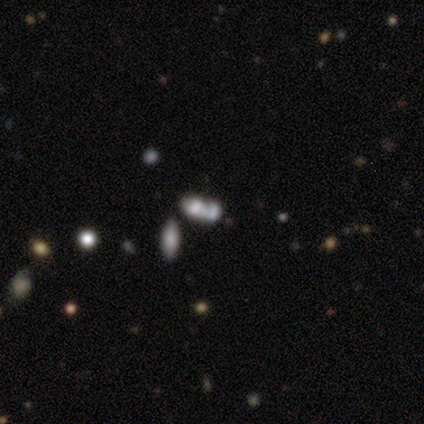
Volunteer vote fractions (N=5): smooth_or_featured: smooth (p=0.80) [alt: featured or disk p=0.20]
how_rounded: in between (p=1.00)
merging: merger (p=0.40) [alt: none p=0.20]